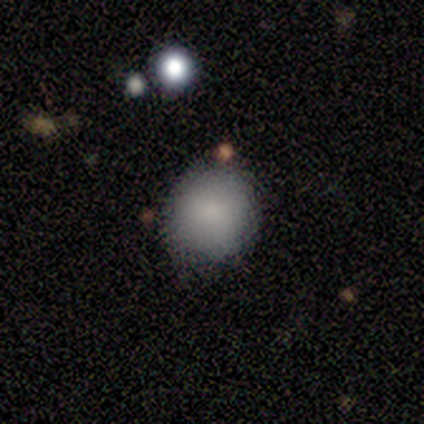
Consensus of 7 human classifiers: A smooth galaxy with no disk features (86%) that is round (100%). Merging: none (86%).